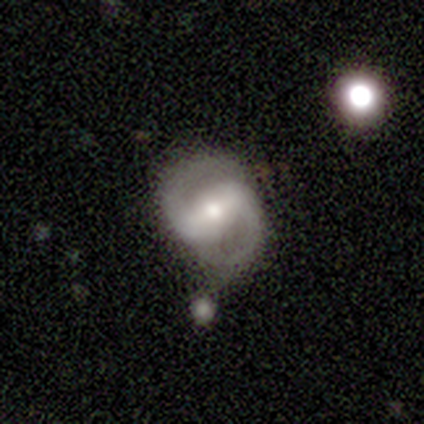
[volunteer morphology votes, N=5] Smooth or featured?
  - featured or disk: 60% *
  - smooth: 40%
  - star or artifact: 0%
Edge-on disk?
  - no: 100% *
  - yes: 0%
Bar?
  - strong: 67% *
  - weak: 33%
  - no: 0%
Spiral arms?
  - yes: 100% *
  - no: 0%
Spiral winding?
  - medium: 67% *
  - loose: 33%
  - tight: 0%
Spiral arm count?
  - 2: 100% *
  - 1: 0%
  - 3: 0%
  - 4: 0%
  - more than 4: 0%
  - can't tell: 0%
Bulge size?
  - moderate: 67% *
  - small: 33%
  - dominant: 0%
  - large: 0%
  - none: 0%
Merging?
  - none: 60% *
  - major disturbance: 20%
  - merger: 20%
  - minor disturbance: 0%